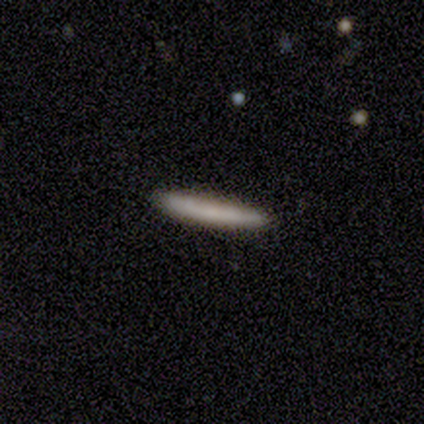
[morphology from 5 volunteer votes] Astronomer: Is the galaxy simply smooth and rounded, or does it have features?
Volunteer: smooth — 80%.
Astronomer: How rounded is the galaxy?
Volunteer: cigar-shaped — 100%.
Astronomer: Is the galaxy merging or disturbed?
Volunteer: none — 100%.